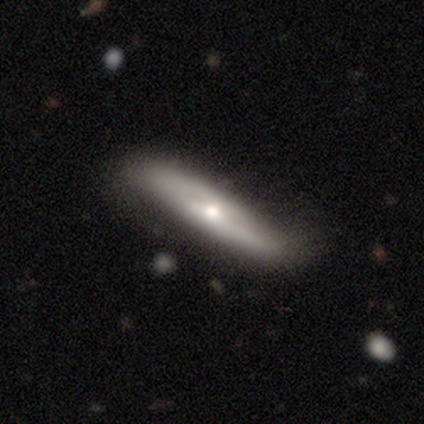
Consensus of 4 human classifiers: Q: Smooth or featured?
A: featured or disk (75%); runner-up: smooth (25%)
Q: Edge-on disk?
A: no (67%); runner-up: yes (33%)
Q: Bar?
A: strong (50%); tied with: no (50%)
Q: Spiral arms?
A: yes (50%); tied with: no (50%)
Q: Spiral winding?
A: medium (100%)
Q: Spiral arm count?
A: 2 (100%)
Q: Bulge size?
A: dominant (50%); tied with: small (50%)
Q: Merging?
A: none (100%)